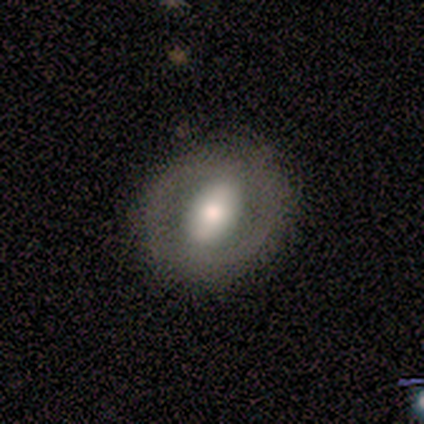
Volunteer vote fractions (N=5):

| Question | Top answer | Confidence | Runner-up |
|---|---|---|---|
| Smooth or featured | smooth | 60% | featured or disk (20%) |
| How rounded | in between | 67% | cigar-shaped (33%) |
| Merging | none | 100% | — |